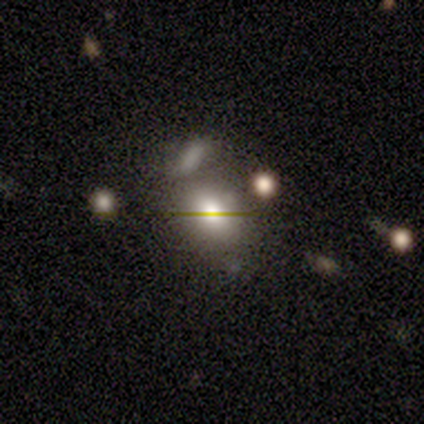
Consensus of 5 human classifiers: A smooth galaxy with no disk features (40%, tied with star or artifact) that is round (50%, tied with in between).

Vote fractions:
- Smooth or featured? smooth: 40% (tied) / star or artifact: 40% (tied) / featured or disk: 20%
- How rounded? round: 50% (tied) / in between: 50% (tied) / cigar-shaped: 0%
- Merging? none: 67% / minor disturbance: 33% / major disturbance: 0% / merger: 0%